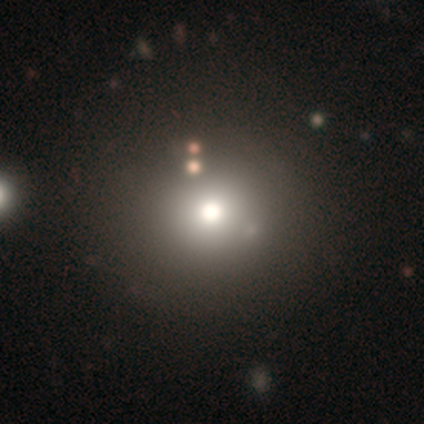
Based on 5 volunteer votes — This appears to be a featured or disk galaxy (40%, tied with star or artifact) with no bar (100%), no spiral arms (100%) and a large central bulge (50%, tied with moderate). Merging: none (67%).